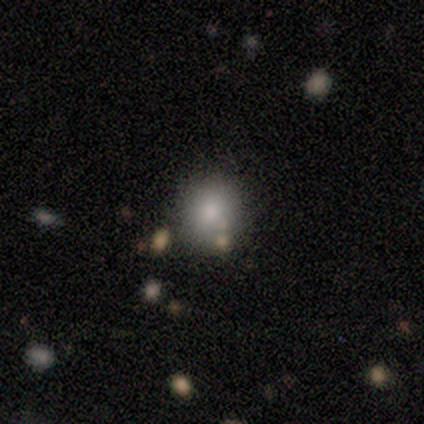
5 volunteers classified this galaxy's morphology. Volunteers were most divided on "merging": none: 80%, minor disturbance: 20%, major disturbance: 0%, merger: 0%. More confident: smooth or featured — smooth (100%); how rounded — round (100%).